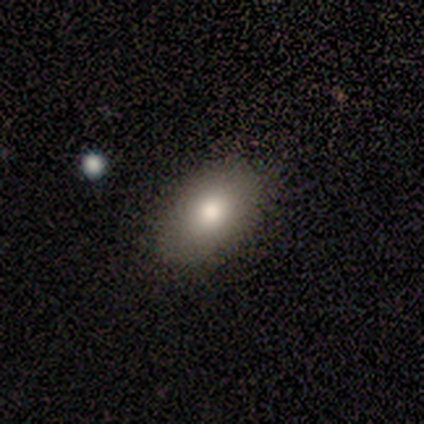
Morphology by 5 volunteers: This is clearly a smooth galaxy (80%). How rounded: clearly in between (100%). Merging: clearly none (100%).